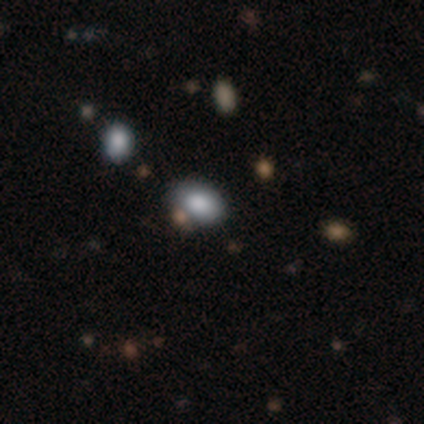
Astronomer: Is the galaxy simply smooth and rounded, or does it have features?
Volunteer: smooth — 80%.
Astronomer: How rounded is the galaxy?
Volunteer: in between — 100%.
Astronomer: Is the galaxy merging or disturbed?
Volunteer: none — 100%.